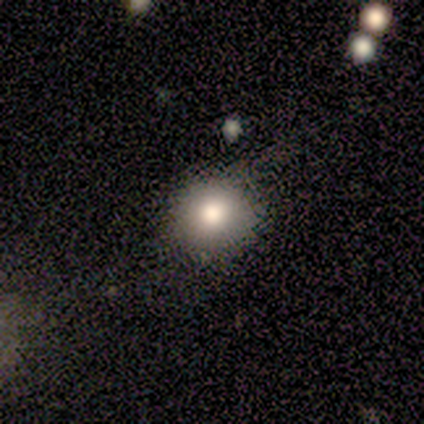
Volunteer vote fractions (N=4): Smooth or featured? 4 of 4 (100%) said smooth. How rounded? 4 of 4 (100%) said round. Merging? 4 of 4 (100%) said none.